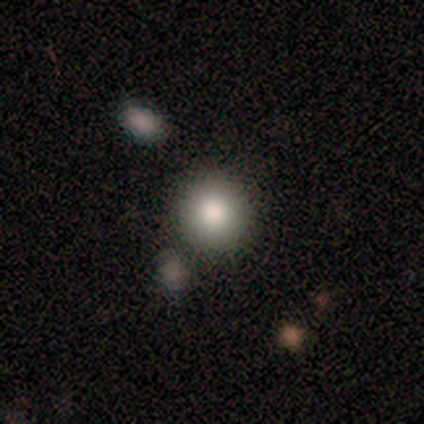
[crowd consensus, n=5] smooth_or_featured: smooth (p=1.00)
how_rounded: round (p=1.00)
merging: none (p=0.80) [alt: minor disturbance p=0.20]